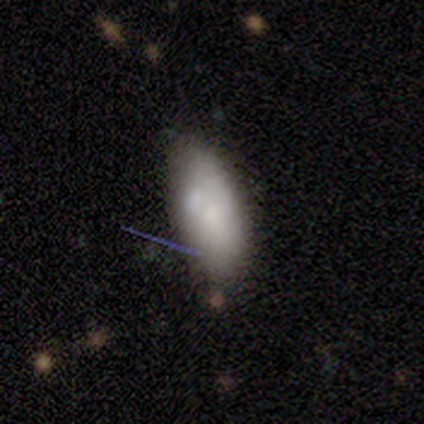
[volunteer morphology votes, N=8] type=smooth (75%); roundness=in between (100%); merging=minor disturbance (38%, tied with merger).